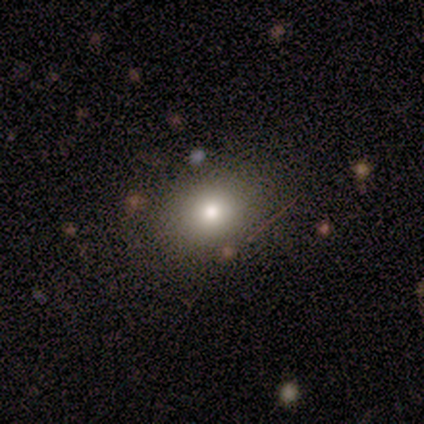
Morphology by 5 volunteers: smooth 80%, featured or disk 20%, star or artifact 0%. Down the decision tree: how rounded — round (50%, tied with in between); merging — none (80%).